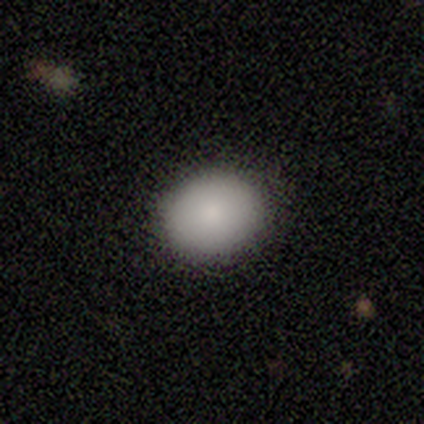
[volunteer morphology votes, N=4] smooth 100%, featured or disk 0%, star or artifact 0%. Down the decision tree: how rounded — round (100%); merging — none (100%).